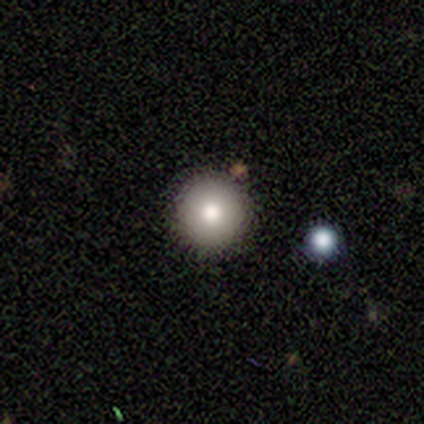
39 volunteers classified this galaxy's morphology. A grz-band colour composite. It shows a smooth galaxy with no disk features (67%) that is round (88%). Merging: none (89%).